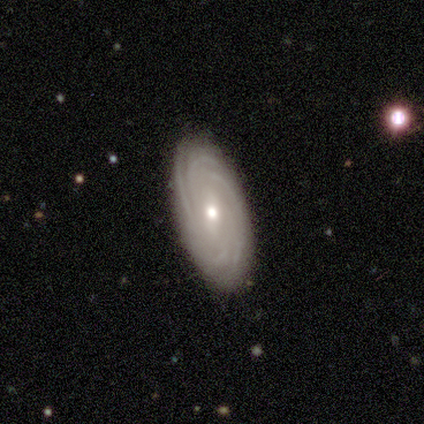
featured or disk 84%, smooth 14%, star or artifact 3%. Down the decision tree: edge-on disk — no (90%); bar — no (46%); spiral arms — yes (96%); spiral arm count — more than 4 (33%); spiral winding — tight (89%); bulge size — moderate (61%); merging — none (92%).